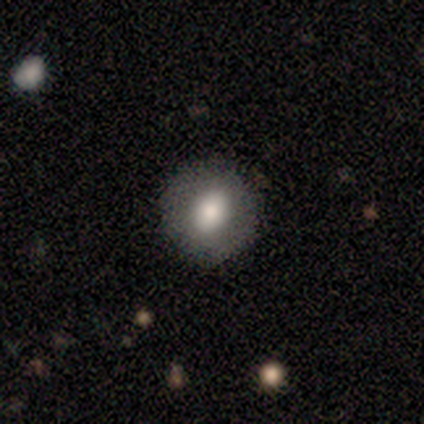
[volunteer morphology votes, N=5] Smooth or featured: smooth — 80% (star or artifact — 20%)
How rounded: round — 75% (in between — 25%)
Merging: none — 75% (merger — 25%)